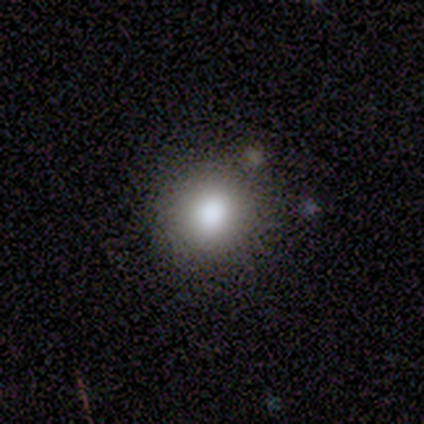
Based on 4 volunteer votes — smooth-or-featured: smooth: 100% | featured or disk: 0% | star or artifact: 0%
  how-rounded: round: 75% | in between: 25% | cigar-shaped: 0%
  merging: none: 100% | minor disturbance: 0% | major disturbance: 0% | merger: 0%